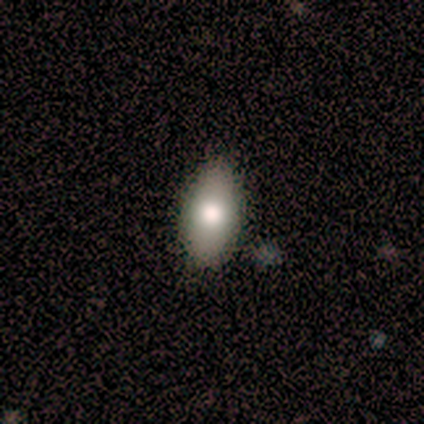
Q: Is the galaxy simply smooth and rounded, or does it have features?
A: smooth — 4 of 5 (80%).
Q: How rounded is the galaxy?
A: in between — 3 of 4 (75%).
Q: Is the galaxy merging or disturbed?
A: none — 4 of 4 (100%).